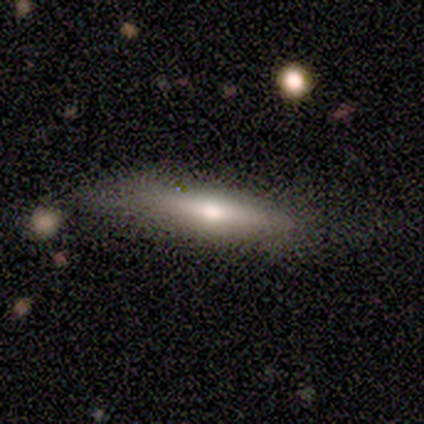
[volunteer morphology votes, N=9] Smooth or featured: smooth — 67% (featured or disk — 22%)
How rounded: in between — 50% (tied with cigar-shaped — 50%)
Merging: none — 50% (tied with minor disturbance — 50%)